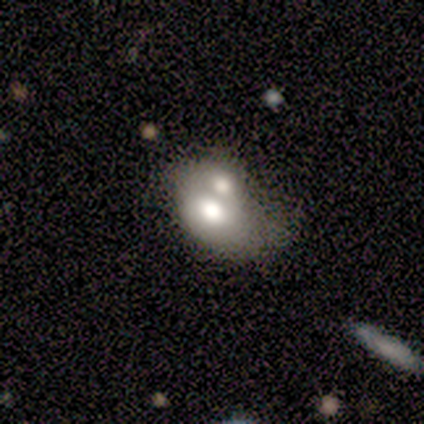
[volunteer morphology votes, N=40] Overall: smooth (52%; featured or disk 38%). How rounded: in between (76%). Merging: merger (78%).